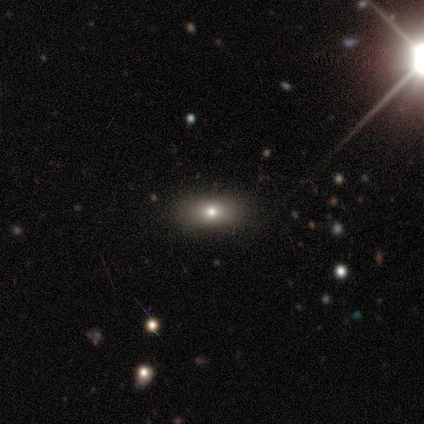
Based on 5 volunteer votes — Overall: smooth (60%; featured or disk 20%). How rounded: in between (100%). Merging: none (100%).